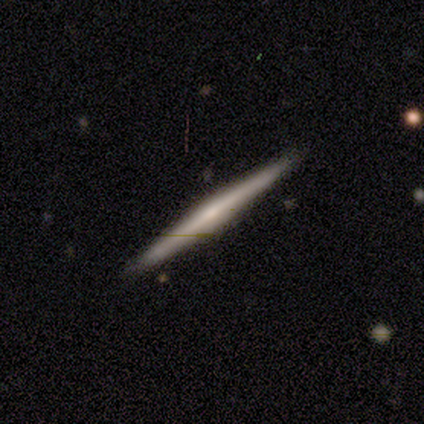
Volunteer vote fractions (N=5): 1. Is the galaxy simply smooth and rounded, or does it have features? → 60% featured or disk, 40% smooth, 0% star or artifact.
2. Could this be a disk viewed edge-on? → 100% yes, 0% no.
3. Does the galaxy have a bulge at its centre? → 67% rounded, 33% boxy, 0% none.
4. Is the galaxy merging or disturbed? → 100% none, 0% minor disturbance, 0% major disturbance, 0% merger.